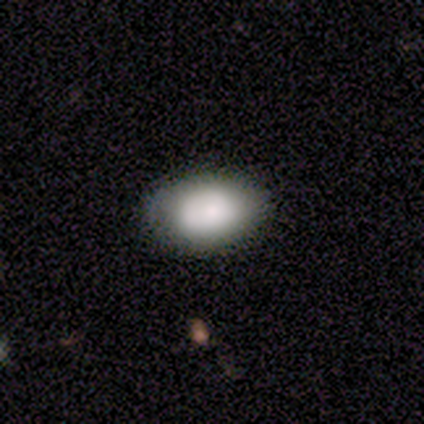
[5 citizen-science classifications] Smooth or featured? 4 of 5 (80%) said smooth. How rounded? 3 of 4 (75%) said in between. Merging? 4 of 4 (100%) said none.